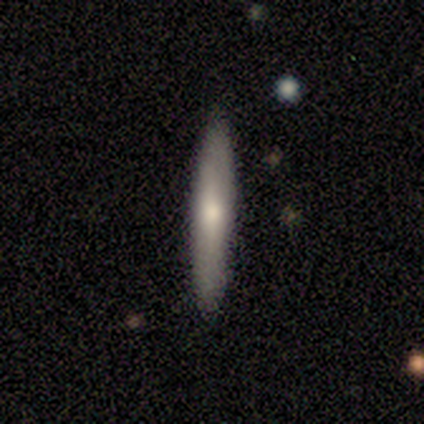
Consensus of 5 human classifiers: Smooth or featured? 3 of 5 (60%) said smooth. How rounded? 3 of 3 (100%) said cigar-shaped. Merging? 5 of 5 (100%) said none.